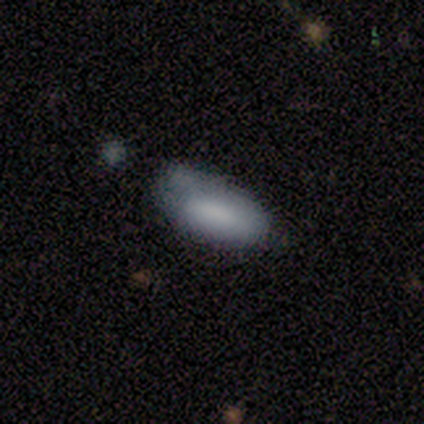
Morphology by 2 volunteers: Smooth or featured?
  - smooth: 50% * (tied)
  - star or artifact: 50% * (tied)
  - featured or disk: 0%
How rounded?
  - in between: 100% *
  - round: 0%
  - cigar-shaped: 0%
Merging?
  - none: 100% *
  - minor disturbance: 0%
  - major disturbance: 0%
  - merger: 0%